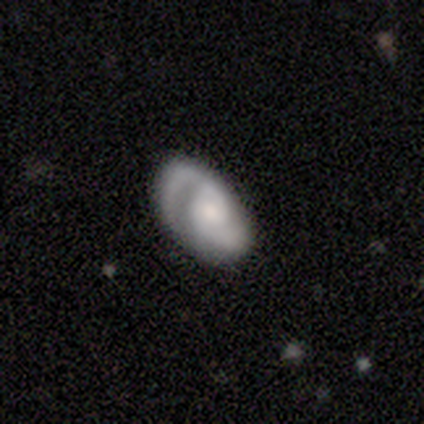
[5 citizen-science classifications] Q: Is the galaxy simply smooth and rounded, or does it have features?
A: featured or disk — 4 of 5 (80%).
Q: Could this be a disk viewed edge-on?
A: no — 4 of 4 (100%).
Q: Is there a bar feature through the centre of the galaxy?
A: weak — 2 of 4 (50%, tied with no).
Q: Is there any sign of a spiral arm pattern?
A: yes — 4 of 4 (100%).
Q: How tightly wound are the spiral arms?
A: loose — 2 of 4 (50%).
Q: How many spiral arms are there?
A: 2 — 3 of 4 (75%).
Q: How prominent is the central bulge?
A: small — 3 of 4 (75%).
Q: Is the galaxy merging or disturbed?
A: none — 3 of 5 (60%).